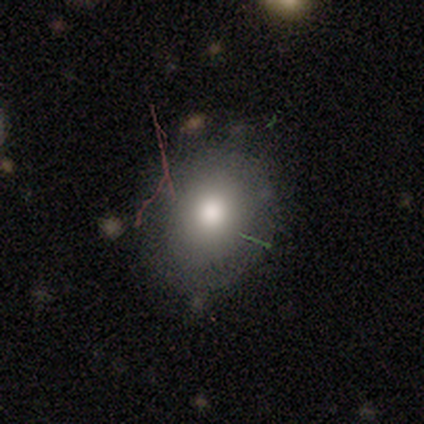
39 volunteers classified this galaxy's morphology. type=smooth (77%); roundness=round (57%); merging=none (79%).